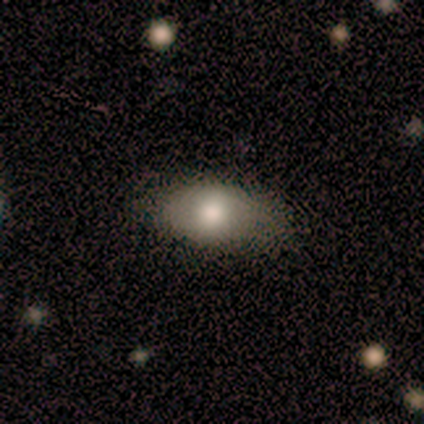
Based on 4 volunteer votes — This appears to be a smooth galaxy with no disk features (100%) that is in between round and cigar-shaped (100%). Merging: none (75%).